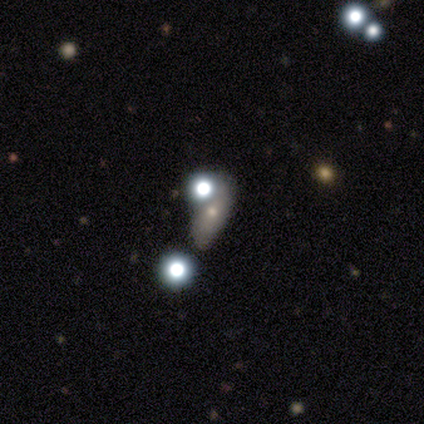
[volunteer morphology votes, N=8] A smooth galaxy with no disk features (88%) that is in between round and cigar-shaped (86%).

Vote fractions:
- Smooth or featured? smooth: 88% / featured or disk: 12% / star or artifact: 0%
- How rounded? in between: 86% / cigar-shaped: 14% / round: 0%
- Merging? none: 38% / minor disturbance: 25% / major disturbance: 25% / merger: 12%